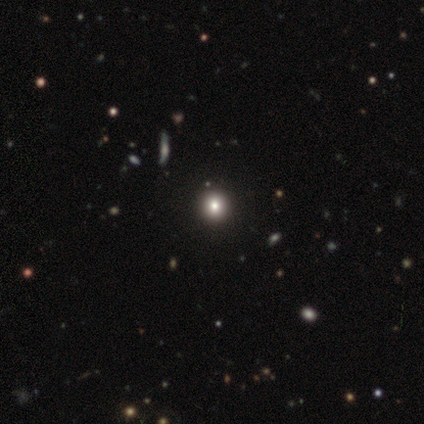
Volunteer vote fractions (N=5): Q: Smooth or featured?
A: smooth (80%); runner-up: star or artifact (20%)
Q: How rounded?
A: round (100%)
Q: Merging?
A: none (100%)